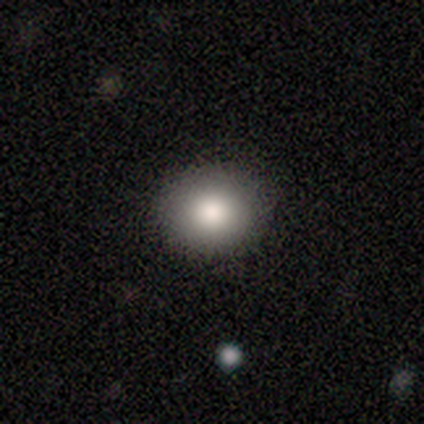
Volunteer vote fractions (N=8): A smooth galaxy with no disk features (100%) that is round (88%). Merging: none (88%).